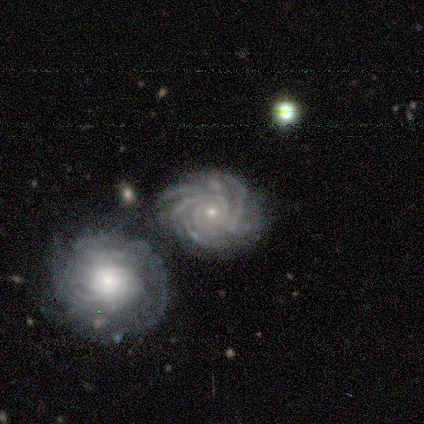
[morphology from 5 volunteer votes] Smooth or featured? featured or disk (100%)
Edge-on disk? no (100%)
Bar? no (100%)
Spiral arms? yes (100%)
Spiral winding? tight (80%)
Spiral arm count? more than 4 (60%)
Bulge size? small (100%)
Merging? none (100%)